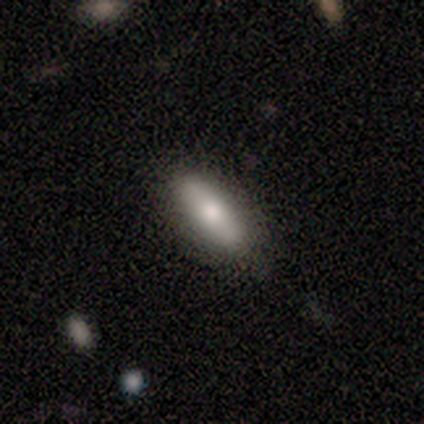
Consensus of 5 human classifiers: Smooth or featured: smooth — 60% (featured or disk — 40%)
How rounded: in between — 67% (cigar-shaped — 33%)
Merging: none — 100%